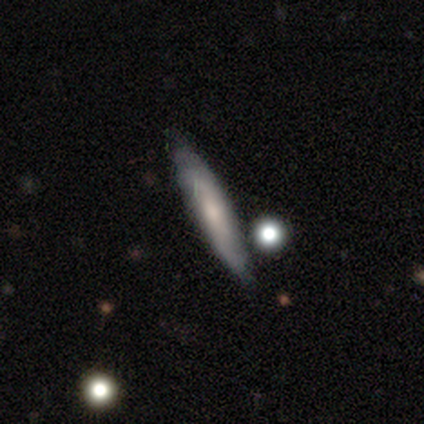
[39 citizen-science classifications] Q: Smooth or featured?
A: smooth (69%); runner-up: featured or disk (28%)
Q: How rounded?
A: cigar-shaped (96%); runner-up: in between (4%)
Q: Merging?
A: none (74%); runner-up: minor disturbance (13%)